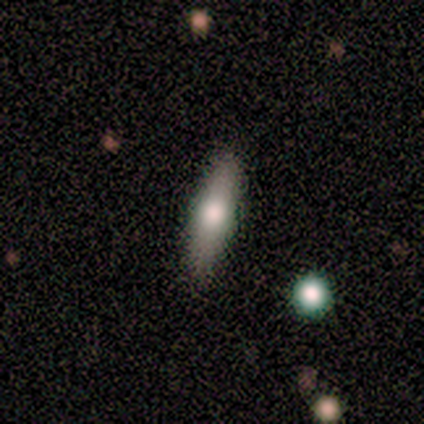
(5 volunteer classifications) This appears to be a featured or disk galaxy (60%) viewed edge-on (67%) with a rounded central bulge (100%). Merging: none (100%).